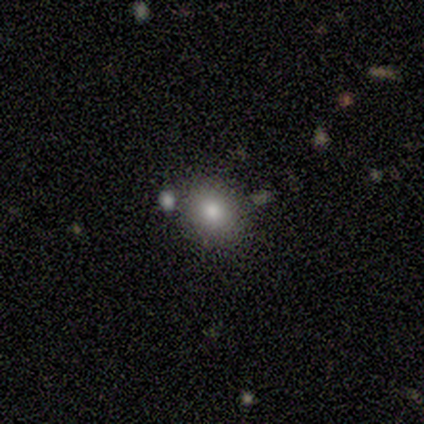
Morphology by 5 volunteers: Volunteers were most divided on "how rounded": round: 60%, in between: 40%, cigar-shaped: 0%. More confident: smooth or featured — smooth (100%); merging — none (80%).